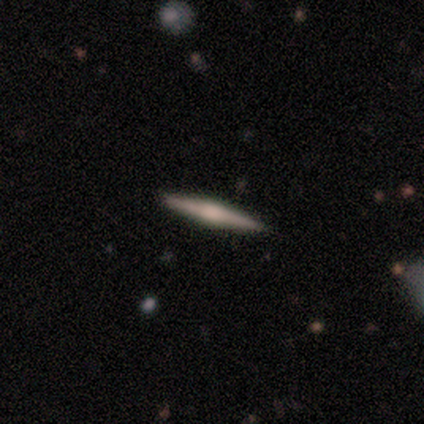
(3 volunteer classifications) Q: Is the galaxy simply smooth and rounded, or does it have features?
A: featured or disk — 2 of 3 (67%).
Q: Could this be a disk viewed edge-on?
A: yes — 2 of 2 (100%).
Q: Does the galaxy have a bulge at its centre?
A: none — 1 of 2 (50%, tied with rounded).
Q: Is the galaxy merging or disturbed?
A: none — 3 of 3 (100%).